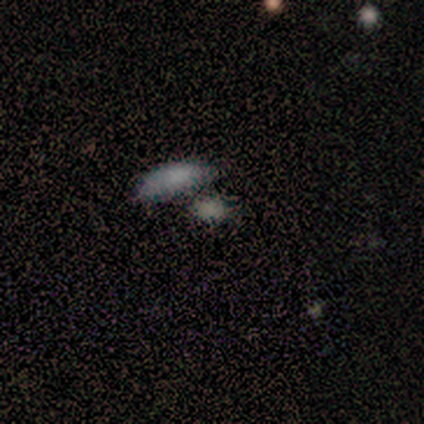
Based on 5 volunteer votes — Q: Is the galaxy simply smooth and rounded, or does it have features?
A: smooth — 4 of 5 (80%).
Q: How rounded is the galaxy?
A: in between — 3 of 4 (75%).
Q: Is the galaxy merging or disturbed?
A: none — 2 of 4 (50%).